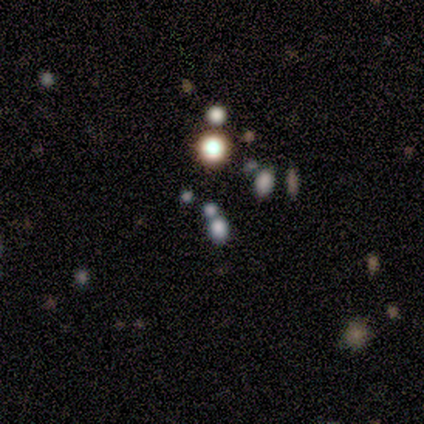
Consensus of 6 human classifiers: Overall: smooth (67%). How rounded: round (100%). Merging: none (60%; minor disturbance 40%).